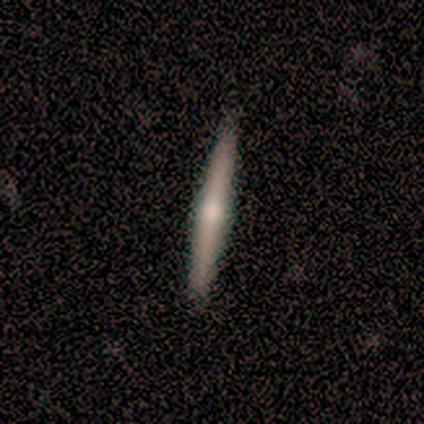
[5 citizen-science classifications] A featured or disk galaxy (60%) viewed edge-on (100%) with a rounded central bulge (100%).

Vote fractions:
- Smooth or featured? featured or disk: 60% / smooth: 40% / star or artifact: 0%
- Edge-on disk? yes: 100% / no: 0%
- Edge-on bulge? rounded: 100% / boxy: 0% / none: 0%
- Merging? none: 80% / minor disturbance: 20% / major disturbance: 0% / merger: 0%